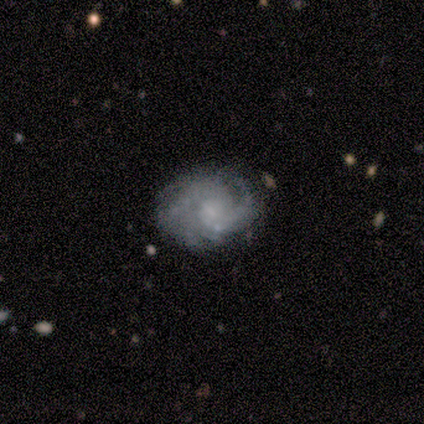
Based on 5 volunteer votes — smooth_or_featured: featured or disk (p=1.00)
disk_edge_on: no (p=1.00)
bar: no (p=0.80) [alt: weak p=0.20]
has_spiral_arms: yes (p=0.80) [alt: no p=0.20]
spiral_winding: tight (p=0.50) [alt: medium p=0.25]
spiral_arm_count: 2 (p=0.50) [alt: 1 p=0.25]
bulge_size: none (p=0.40) [alt: large p=0.20]
merging: minor disturbance (p=0.60) [alt: none p=0.40]